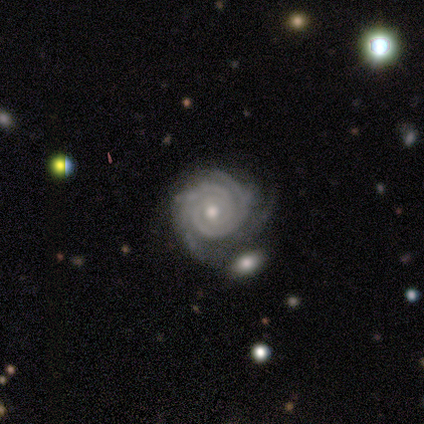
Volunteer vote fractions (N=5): smooth_or_featured: featured or disk (p=1.00)
disk_edge_on: no (p=1.00)
bar: no (p=0.60) [alt: weak p=0.40]
has_spiral_arms: yes (p=1.00)
spiral_winding: tight (p=0.40) [tied with: medium p=0.40]
spiral_arm_count: 3 (p=0.60) [alt: 2 p=0.20]
bulge_size: small (p=0.60) [alt: moderate p=0.40]
merging: none (p=0.80) [alt: minor disturbance p=0.20]